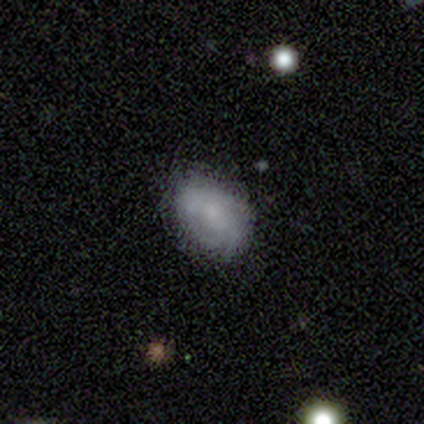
smooth_or_featured: smooth (p=0.75) [alt: featured or disk p=0.25]
how_rounded: in between (p=0.67) [alt: round p=0.33]
merging: none (p=0.75) [alt: minor disturbance p=0.25]